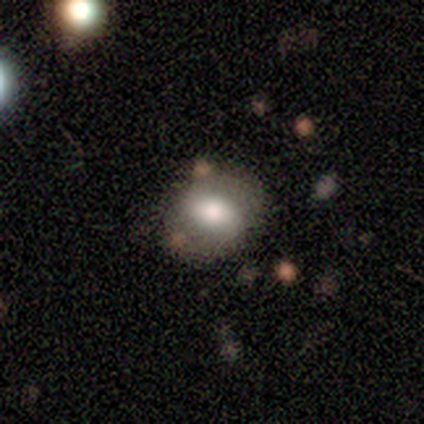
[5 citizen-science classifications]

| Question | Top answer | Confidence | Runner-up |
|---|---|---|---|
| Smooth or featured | smooth | 60% | featured or disk (40%) |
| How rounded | in between | 100% | — |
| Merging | none | 60% | minor disturbance (40%) |